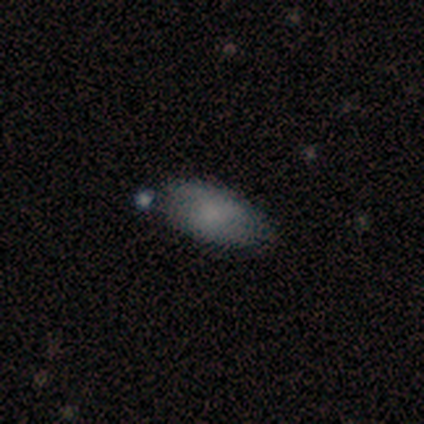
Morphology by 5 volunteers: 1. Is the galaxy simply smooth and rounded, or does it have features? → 60% featured or disk, 40% smooth, 0% star or artifact.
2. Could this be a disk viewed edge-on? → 67% no, 33% yes.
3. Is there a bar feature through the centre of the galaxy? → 50% weak (tied), 50% no (tied), 0% strong.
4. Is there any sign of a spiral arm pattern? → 50% yes (tied), 50% no (tied).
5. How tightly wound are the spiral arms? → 100% tight, 0% medium, 0% loose.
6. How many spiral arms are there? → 100% can't tell, 0% 1, 0% 2, 0% 3, 0% 4, 0% more than 4.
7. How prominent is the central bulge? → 50% moderate (tied), 50% none (tied), 0% dominant, 0% large, 0% small.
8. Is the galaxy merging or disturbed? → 60% none, 40% minor disturbance, 0% major disturbance, 0% merger.